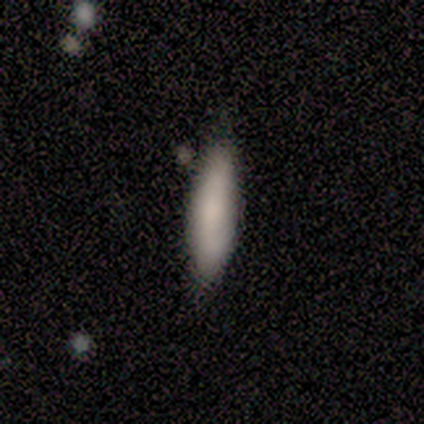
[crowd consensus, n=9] Smooth or featured? 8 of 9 (89%) said smooth. How rounded? 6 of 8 (75%) said cigar-shaped. Merging? 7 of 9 (78%) said none.